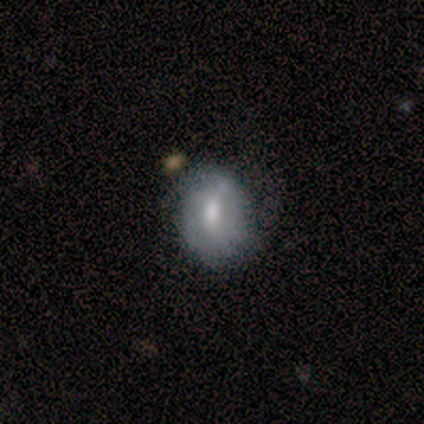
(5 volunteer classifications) Smooth or featured? smooth (100%)
How rounded? round (60%)
Merging? none (40%, tied with major disturbance)